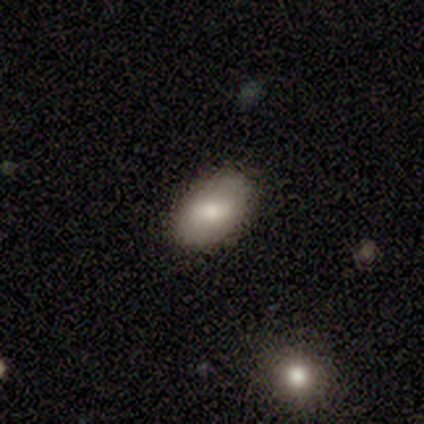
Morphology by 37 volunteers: type=smooth (70%); roundness=in between (85%); merging=none (89%).